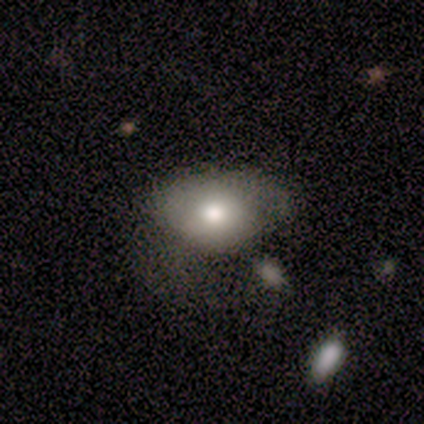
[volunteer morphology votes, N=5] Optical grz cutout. It shows a smooth galaxy with no disk features (80%) that is in between round and cigar-shaped (100%). Merging: none (40%, tied with minor disturbance).